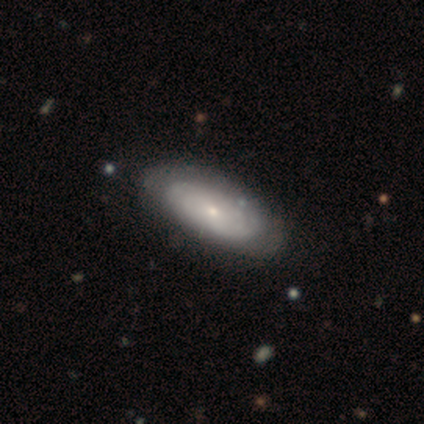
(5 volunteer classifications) A featured or disk galaxy (60%) with no bar (100%), tight (100%) spiral arms (100%) and a small central bulge (67%).

Vote fractions:
- Smooth or featured? featured or disk: 60% / smooth: 40% / star or artifact: 0%
- Edge-on disk? no: 100% / yes: 0%
- Bar? no: 100% / strong: 0% / weak: 0%
- Spiral arms? yes: 100% / no: 0%
- Spiral winding? tight: 100% / medium: 0% / loose: 0%
- Spiral arm count? can't tell: 100% / 1: 0% / 2: 0% / 3: 0% / 4: 0% / more than 4: 0%
- Bulge size? small: 67% / moderate: 33% / dominant: 0% / large: 0% / none: 0%
- Merging? none: 100% / minor disturbance: 0% / major disturbance: 0% / merger: 0%